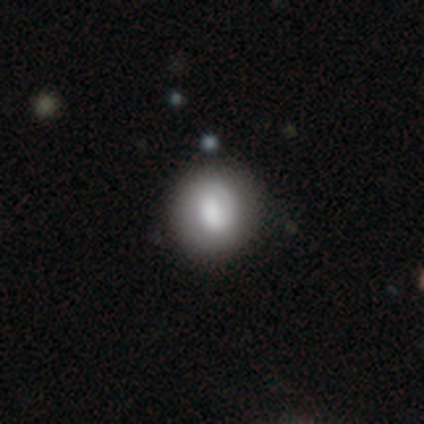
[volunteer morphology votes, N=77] Volunteers were most divided on "smooth or featured": smooth: 66%, featured or disk: 31%, star or artifact: 3%. Remaining: how rounded — round (84%); merging — none (47%).